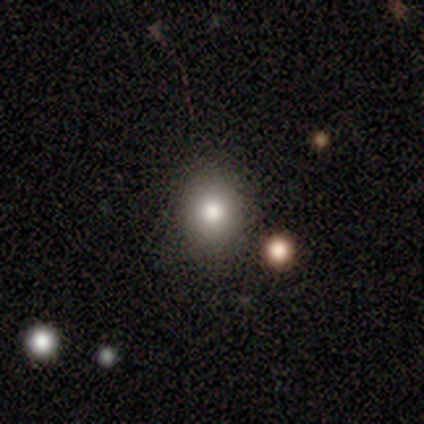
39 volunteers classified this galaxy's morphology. Smooth or featured? smooth (74%)
How rounded? round (72%)
Merging? none (88%)